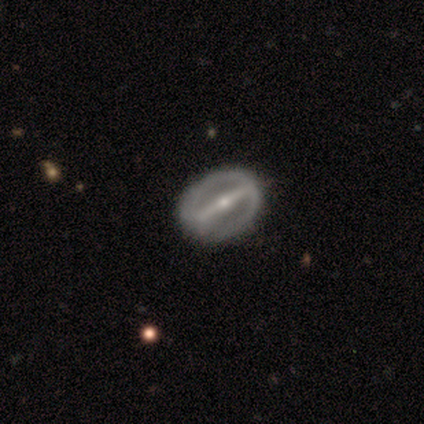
Smooth or featured: featured or disk — 100%
Edge-on disk: yes — 50% (tied with no — 50%)
Edge-on bulge: rounded — 100%
Merging: none — 100%